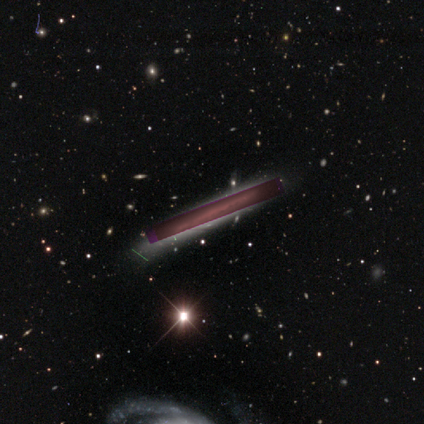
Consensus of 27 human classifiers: smooth-or-featured: star or artifact: 52% | featured or disk: 44% | smooth: 4%